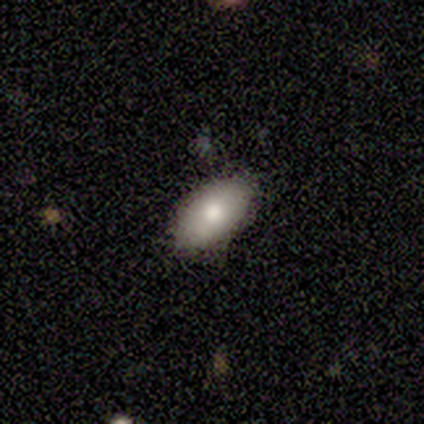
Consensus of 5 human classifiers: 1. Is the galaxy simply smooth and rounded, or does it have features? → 100% smooth, 0% featured or disk, 0% star or artifact.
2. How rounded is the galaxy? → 100% in between, 0% round, 0% cigar-shaped.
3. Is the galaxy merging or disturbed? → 100% none, 0% minor disturbance, 0% major disturbance, 0% merger.